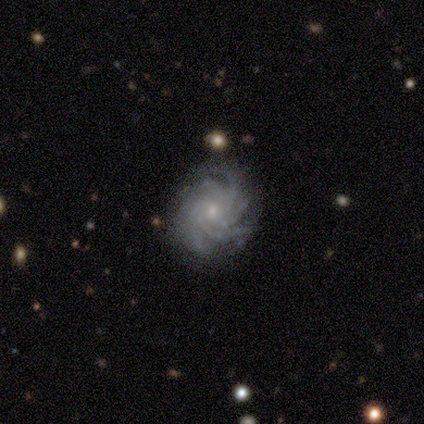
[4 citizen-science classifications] Smooth or featured: featured or disk — 100%
Edge-on disk: no — 100%
Bar: no — 75% (strong — 25%)
Spiral arms: yes — 100%
Spiral winding: tight — 100%
Spiral arm count: more than 4 — 75% (4 — 25%)
Bulge size: small — 75% (moderate — 25%)
Merging: none — 100%